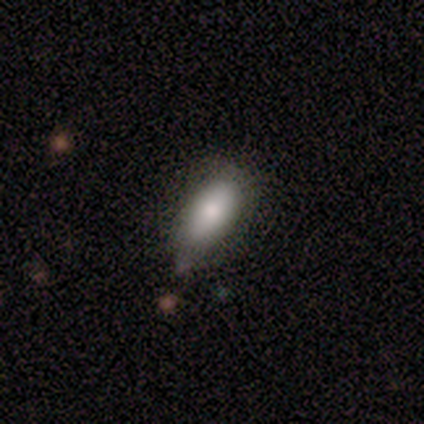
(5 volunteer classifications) Smooth or featured? smooth (80%)
How rounded? in between (75%)
Merging? none (100%)